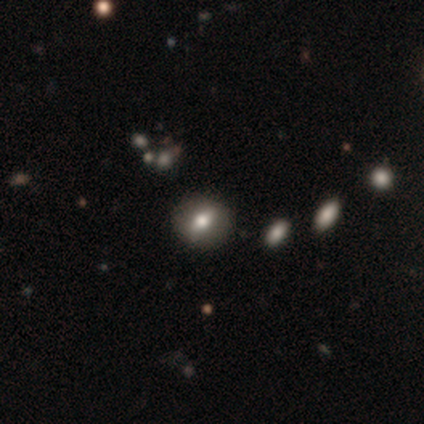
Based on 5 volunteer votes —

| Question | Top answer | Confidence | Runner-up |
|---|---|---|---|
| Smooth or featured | smooth | 60% | featured or disk (40%) |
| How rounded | in between | 67% | round (33%) |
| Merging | none | 100% | — |